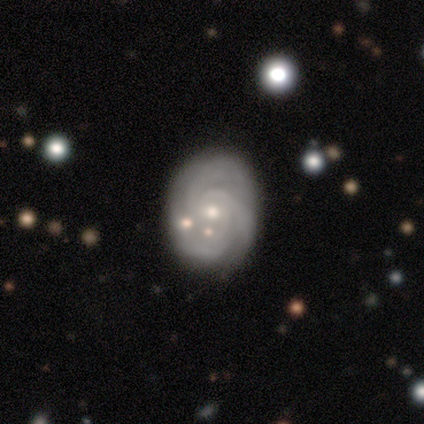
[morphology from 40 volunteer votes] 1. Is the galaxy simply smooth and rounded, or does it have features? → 75% featured or disk, 12% smooth, 12% star or artifact.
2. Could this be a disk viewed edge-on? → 100% no, 0% yes.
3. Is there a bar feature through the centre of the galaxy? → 80% no, 20% weak, 0% strong.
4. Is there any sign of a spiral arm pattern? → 93% yes, 7% no.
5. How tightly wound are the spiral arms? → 61% tight, 32% medium, 7% loose.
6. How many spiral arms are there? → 64% 3, 14% can't tell, 7% 1, 7% 2, 4% 4, 4% more than 4.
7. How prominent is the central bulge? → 50% moderate, 43% small, 7% none, 0% dominant, 0% large.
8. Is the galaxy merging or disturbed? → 69% none, 17% minor disturbance, 11% merger, 3% major disturbance.